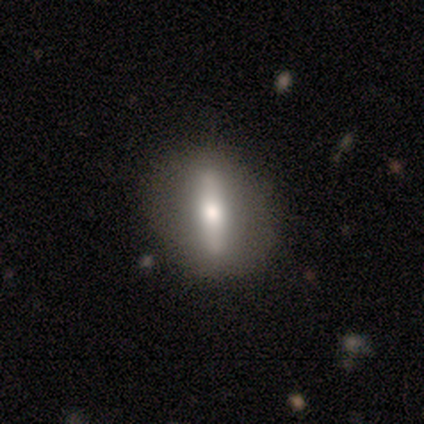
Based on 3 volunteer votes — Smooth or featured?
  - featured or disk: 67% *
  - smooth: 33%
  - star or artifact: 0%
Edge-on disk?
  - no: 100% *
  - yes: 0%
Bar?
  - strong: 100% *
  - weak: 0%
  - no: 0%
Spiral arms?
  - no: 100% *
  - yes: 0%
Bulge size?
  - moderate: 50% * (tied)
  - small: 50% * (tied)
  - dominant: 0%
  - large: 0%
  - none: 0%
Merging?
  - none: 100% *
  - minor disturbance: 0%
  - major disturbance: 0%
  - merger: 0%